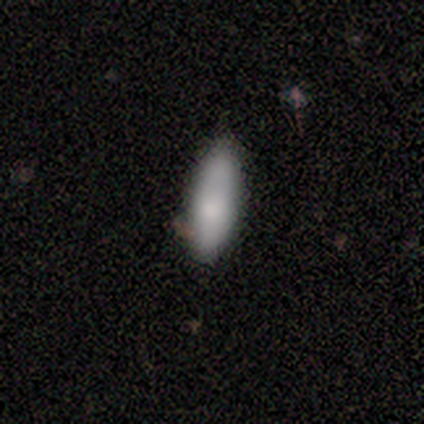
smooth 100%, featured or disk 0%, star or artifact 0%. Down the decision tree: how rounded — in between (80%); merging — none (60%).